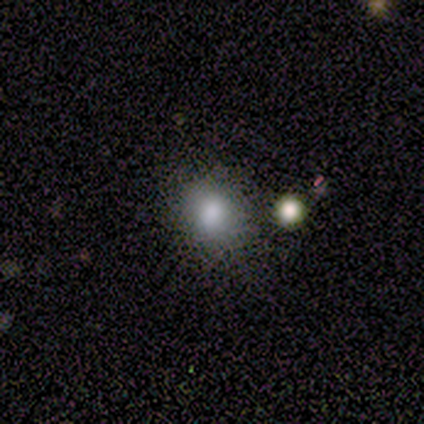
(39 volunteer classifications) This is likely a smooth galaxy (79%). How rounded: likely round (74%). Merging: likely none (70%).